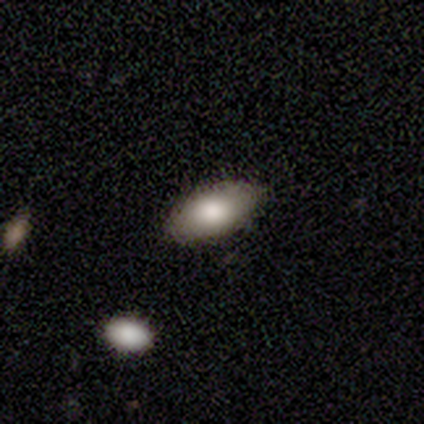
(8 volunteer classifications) smooth_or_featured: smooth (p=0.62) [alt: featured or disk p=0.38]
how_rounded: in between (p=1.00)
merging: none (p=0.88) [alt: major disturbance p=0.12]